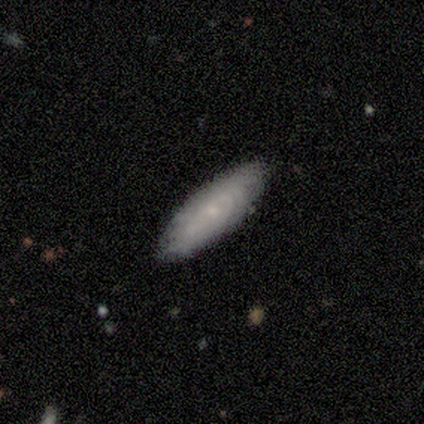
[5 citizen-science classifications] Smooth or featured?
  - smooth: 80% *
  - featured or disk: 20%
  - star or artifact: 0%
How rounded?
  - cigar-shaped: 75% *
  - in between: 25%
  - round: 0%
Merging?
  - none: 100% *
  - minor disturbance: 0%
  - major disturbance: 0%
  - merger: 0%